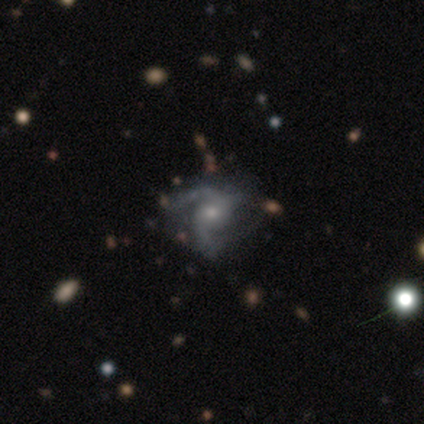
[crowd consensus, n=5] Q: Smooth or featured?
A: featured or disk (100%)
Q: Edge-on disk?
A: no (100%)
Q: Bar?
A: no (80%); runner-up: weak (20%)
Q: Spiral arms?
A: yes (80%); runner-up: no (20%)
Q: Spiral winding?
A: medium (75%); runner-up: loose (25%)
Q: Spiral arm count?
A: 2 (75%); runner-up: can't tell (25%)
Q: Bulge size?
A: small (60%); runner-up: moderate (40%)
Q: Merging?
A: none (80%); runner-up: merger (20%)